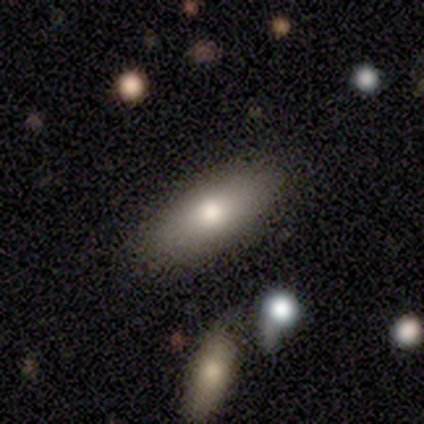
This appears to be a smooth galaxy with no disk features (40%, tied with featured or disk) that is in between round and cigar-shaped (50%, tied with cigar-shaped). Merging: none (100%).